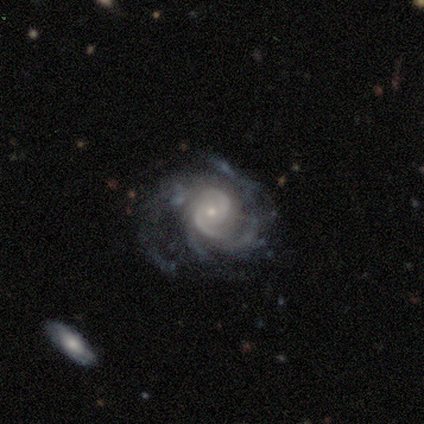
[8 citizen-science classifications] smooth_or_featured: featured or disk (p=1.00)
disk_edge_on: no (p=1.00)
bar: no (p=0.62) [alt: weak p=0.38]
has_spiral_arms: yes (p=1.00)
spiral_winding: tight (p=0.62) [alt: medium p=0.38]
spiral_arm_count: 3 (p=0.38) [tied with: 4 p=0.38]
bulge_size: small (p=0.75) [alt: moderate p=0.25]
merging: none (p=0.75) [alt: major disturbance p=0.25]